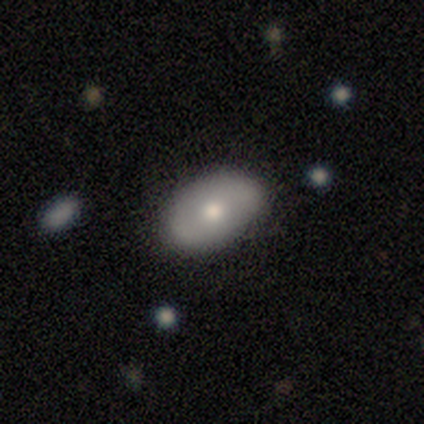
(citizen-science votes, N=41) smooth 68%, featured or disk 27%, star or artifact 5%. Down the decision tree: how rounded — in between (100%); merging — none (77%).